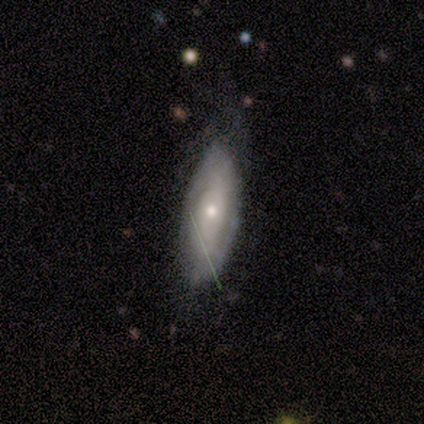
smooth 60%, featured or disk 40%, star or artifact 0%. Down the decision tree: how rounded — in between (100%); merging — none (100%).